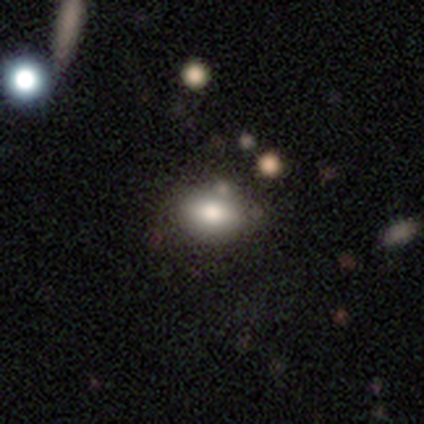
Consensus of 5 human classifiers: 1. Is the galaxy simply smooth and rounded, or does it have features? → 100% smooth, 0% featured or disk, 0% star or artifact.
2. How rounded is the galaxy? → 100% in between, 0% round, 0% cigar-shaped.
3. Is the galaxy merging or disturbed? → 80% none, 20% minor disturbance, 0% major disturbance, 0% merger.